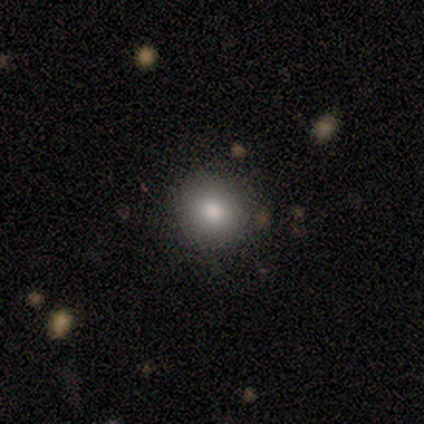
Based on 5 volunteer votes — Smooth or featured? smooth (80%)
How rounded? round (100%)
Merging? none (100%)